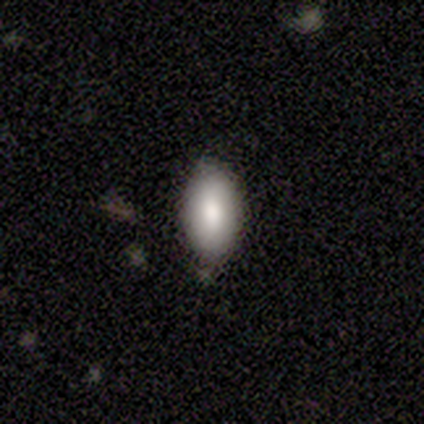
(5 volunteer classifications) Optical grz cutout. It shows a smooth galaxy with no disk features (80%) that is in between round and cigar-shaped (100%). Merging: none (100%).